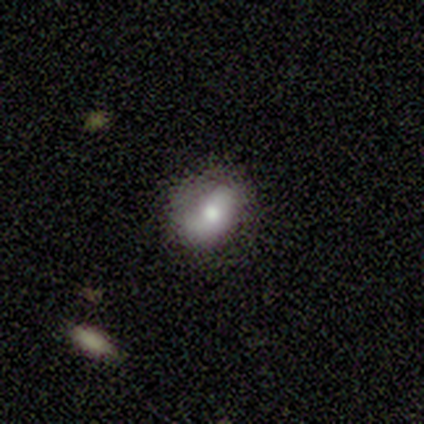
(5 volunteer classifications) This is clearly a smooth galaxy (80%). How rounded: clearly in between (100%). Merging: clearly none (80%).